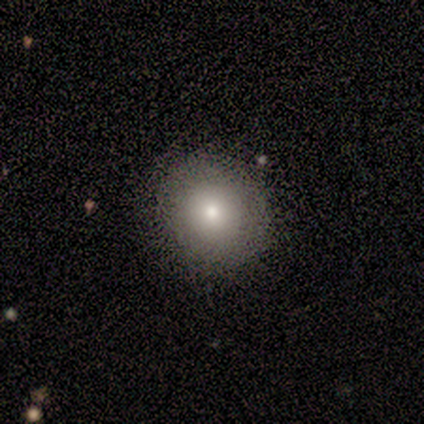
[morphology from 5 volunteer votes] Overall: smooth (80%). How rounded: round (100%). Merging: none (80%).